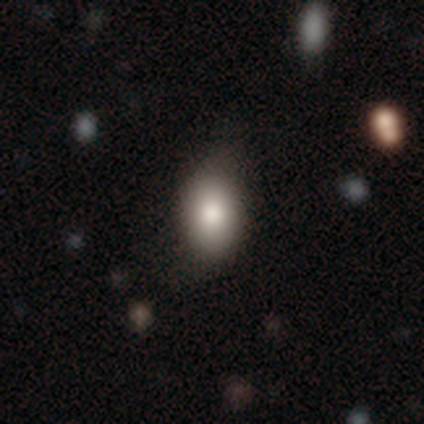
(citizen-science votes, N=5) This is clearly a smooth galaxy (80%). How rounded: clearly in between (100%). Merging: likely none (60%).